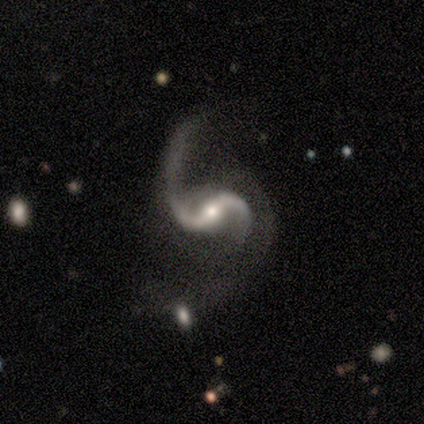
Overall: featured or disk (100%). Edge-on disk: no (100%). Bar: strong (50%; weak 25%). Spiral arms: yes (100%). Spiral arm count: 2 (100%). Spiral winding: loose (75%). Bulge size: small (75%). Merging: none (50%; minor disturbance 25%).